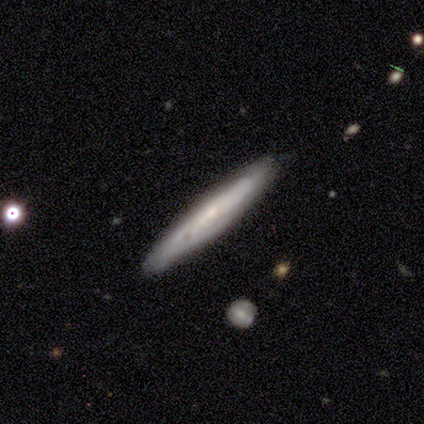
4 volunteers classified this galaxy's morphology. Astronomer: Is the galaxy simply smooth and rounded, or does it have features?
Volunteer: featured or disk — 75%.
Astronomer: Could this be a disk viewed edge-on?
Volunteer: yes — 100%.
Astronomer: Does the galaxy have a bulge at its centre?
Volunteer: none — 67%.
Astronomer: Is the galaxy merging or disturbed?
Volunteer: none — 75%.